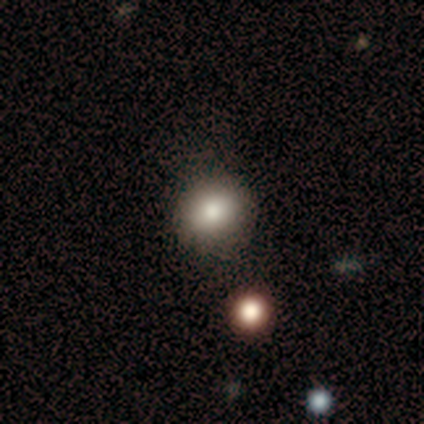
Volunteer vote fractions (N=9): smooth 100%, featured or disk 0%, star or artifact 0%. Down the decision tree: how rounded — round (89%); merging — none (89%).